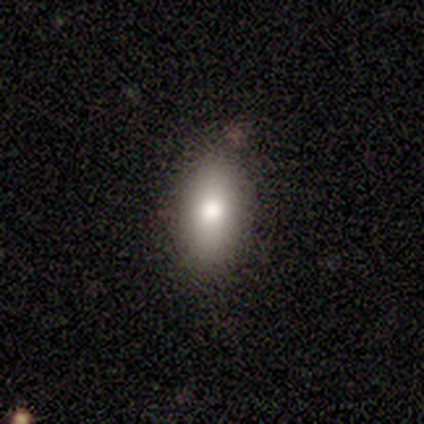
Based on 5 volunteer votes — This appears to be a smooth galaxy with no disk features (100%) that is in between round and cigar-shaped (80%). Merging: none (100%).